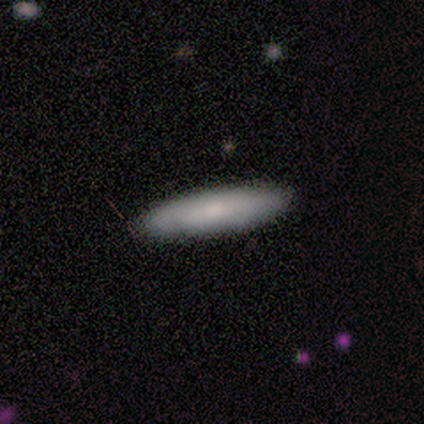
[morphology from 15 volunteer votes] Overall: smooth (87%). How rounded: cigar-shaped (62%; in between 38%). Merging: none (93%).